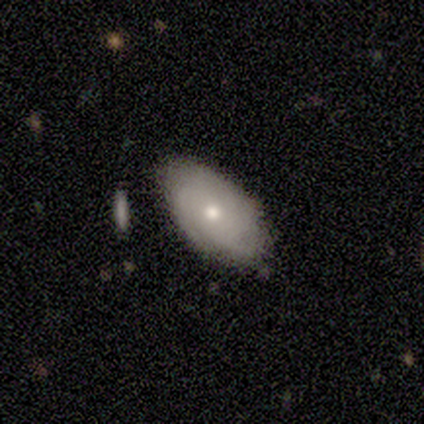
Q: Smooth or featured?
A: featured or disk (80%); runner-up: smooth (20%)
Q: Edge-on disk?
A: no (100%)
Q: Bar?
A: no (75%); runner-up: weak (25%)
Q: Spiral arms?
A: yes (50%); tied with: no (50%)
Q: Spiral winding?
A: tight (100%)
Q: Spiral arm count?
A: can't tell (100%)
Q: Bulge size?
A: moderate (50%); tied with: small (50%)
Q: Merging?
A: none (80%); runner-up: merger (20%)